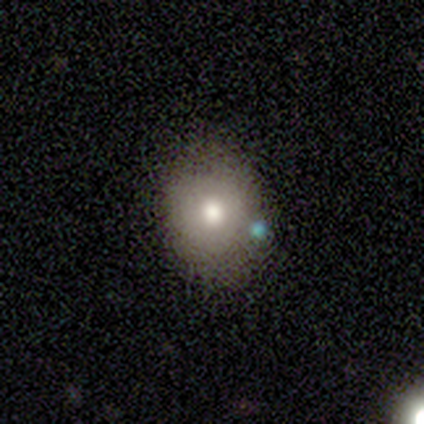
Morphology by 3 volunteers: A smooth galaxy with no disk features (100%) that is in between round and cigar-shaped (67%).

Vote fractions:
- Smooth or featured? smooth: 100% / featured or disk: 0% / star or artifact: 0%
- How rounded? in between: 67% / round: 33% / cigar-shaped: 0%
- Merging? none: 100% / minor disturbance: 0% / major disturbance: 0% / merger: 0%